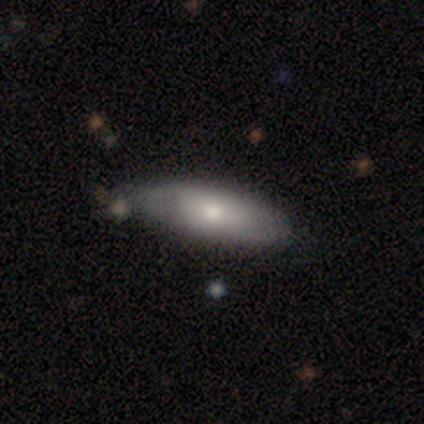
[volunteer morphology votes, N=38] Overall: smooth (71%). How rounded: in between (67%; cigar-shaped 33%). Merging: none (50%; minor disturbance 25%).